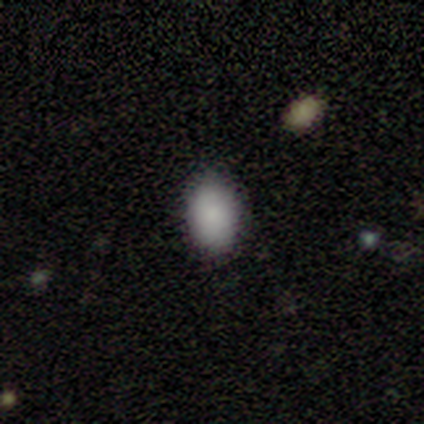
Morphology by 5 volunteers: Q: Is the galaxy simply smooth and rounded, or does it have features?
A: smooth — 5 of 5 (100%).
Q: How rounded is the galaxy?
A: in between — 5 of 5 (100%).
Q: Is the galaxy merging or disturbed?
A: none — 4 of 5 (80%).